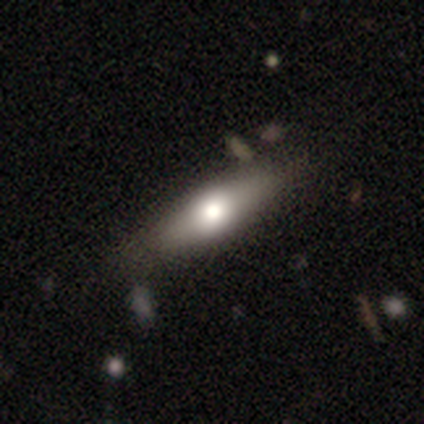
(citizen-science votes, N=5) Smooth or featured?
  - featured or disk: 60% *
  - smooth: 40%
  - star or artifact: 0%
Edge-on disk?
  - yes: 100% *
  - no: 0%
Edge-on bulge?
  - rounded: 100% *
  - boxy: 0%
  - none: 0%
Merging?
  - none: 80% *
  - minor disturbance: 20%
  - major disturbance: 0%
  - merger: 0%